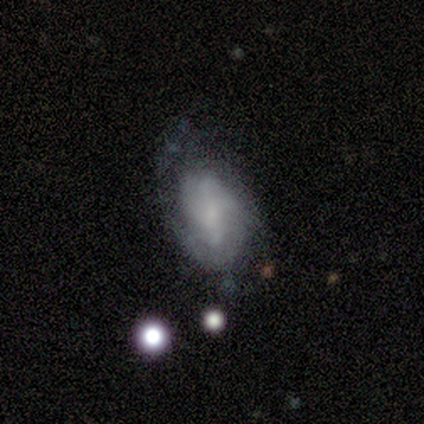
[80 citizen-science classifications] Smooth or featured?
  - featured or disk: 59% *
  - smooth: 38%
  - star or artifact: 4%
Edge-on disk?
  - no: 98% *
  - yes: 2%
Bar?
  - weak: 48% *
  - no: 46%
  - strong: 7%
Spiral arms?
  - yes: 80% *
  - no: 20%
Spiral winding?
  - medium: 49% *
  - loose: 27%
  - tight: 24%
Spiral arm count?
  - can't tell: 46% *
  - 2: 32%
  - 1: 8%
  - 4: 8%
  - 3: 3%
  - more than 4: 3%
Bulge size?
  - none: 48% *
  - small: 30%
  - moderate: 22%
  - dominant: 0%
  - large: 0%
Merging?
  - none: 39% *
  - minor disturbance: 17%
  - major disturbance: 12%
  - merger: 1%